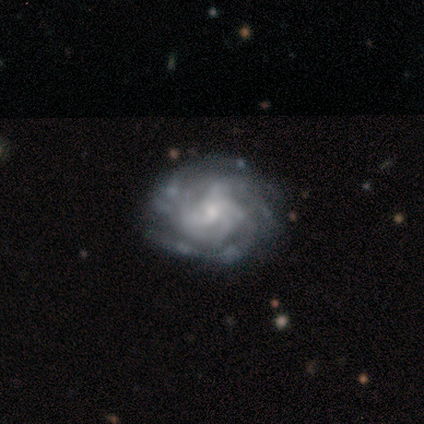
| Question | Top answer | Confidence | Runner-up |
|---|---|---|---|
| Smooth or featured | featured or disk | 80% | smooth (20%) |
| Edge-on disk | no | 100% | — |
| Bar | no | 75% | weak (25%) |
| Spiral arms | yes | 100% | — |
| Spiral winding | tight | 50% | tied: medium (50%) |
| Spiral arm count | can't tell | 75% | more than 4 (25%) |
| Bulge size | small | 50% | tied: none (50%) |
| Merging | none | 80% | minor disturbance (20%) |